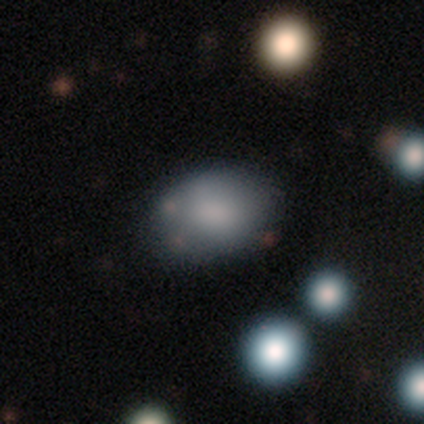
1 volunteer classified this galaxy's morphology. A smooth galaxy with no disk features (100%) that is in between round and cigar-shaped (100%).

Vote fractions:
- Smooth or featured? smooth: 100% / featured or disk: 0% / star or artifact: 0%
- How rounded? in between: 100% / round: 0% / cigar-shaped: 0%
- Merging? none: 100% / minor disturbance: 0% / major disturbance: 0% / merger: 0%